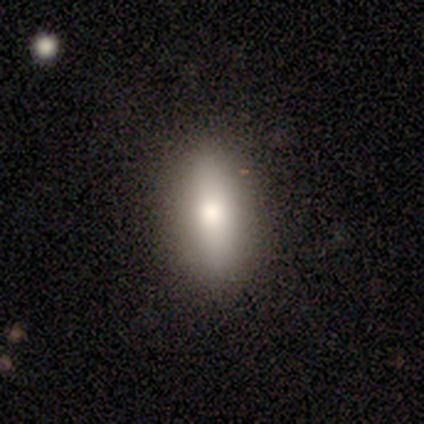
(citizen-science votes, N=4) Smooth or featured? smooth (100%)
How rounded? in between (50%, tied with cigar-shaped)
Merging? none (100%)